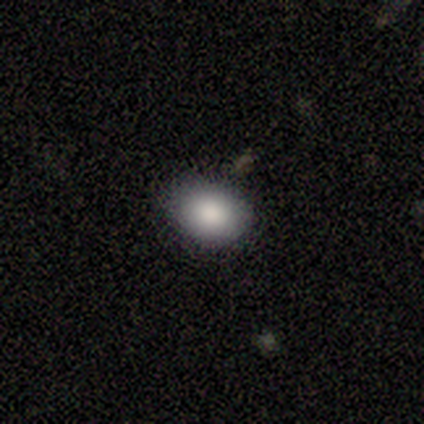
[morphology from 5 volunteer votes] Overall: smooth (100%). How rounded: in between (60%; round 40%). Merging: none (80%).